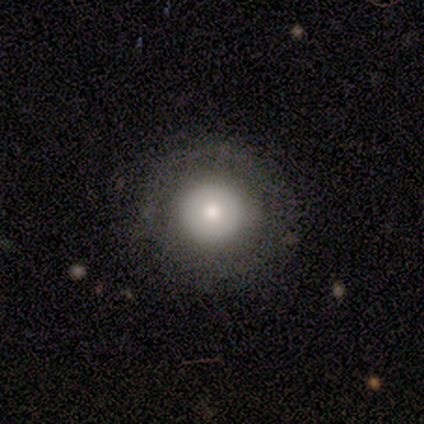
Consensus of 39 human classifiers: smooth 82%, featured or disk 18%, star or artifact 0%. Down the decision tree: how rounded — round (88%); merging — none (87%).